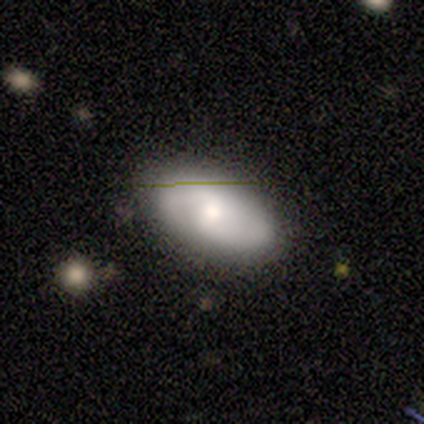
This appears to be a featured or disk galaxy (60%) with no bar (67%), 2 (100%) loose (100%) spiral arms (100%) and a moderate central bulge (100%). Merging: none (50%).